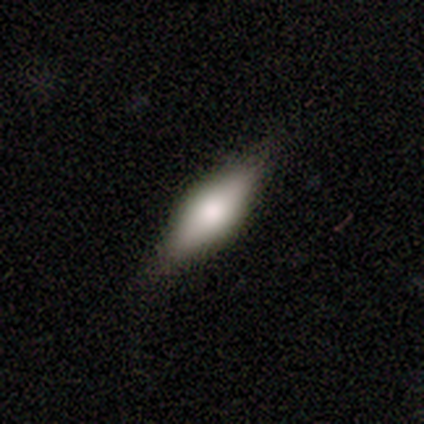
Q: Smooth or featured?
A: smooth (60%); runner-up: featured or disk (40%)
Q: How rounded?
A: in between (67%); runner-up: cigar-shaped (33%)
Q: Merging?
A: none (100%)